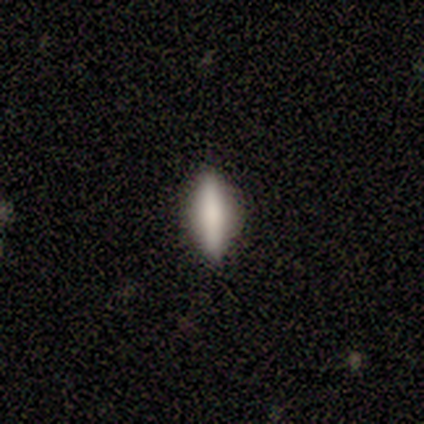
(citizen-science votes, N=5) Q: Smooth or featured?
A: smooth (100%)
Q: How rounded?
A: in between (60%); runner-up: cigar-shaped (40%)
Q: Merging?
A: none (100%)